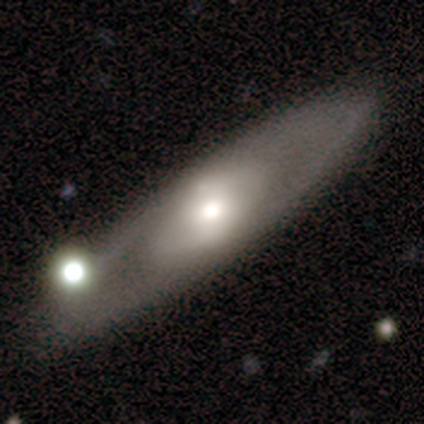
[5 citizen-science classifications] Overall: featured or disk (80%). Edge-on disk: no (100%). Bar: no (75%). Spiral arms: yes (75%). Spiral arm count: 2 (67%; can't tell 33%). Spiral winding: loose (67%; tight 33%). Bulge size: moderate (75%). Merging: none (80%).